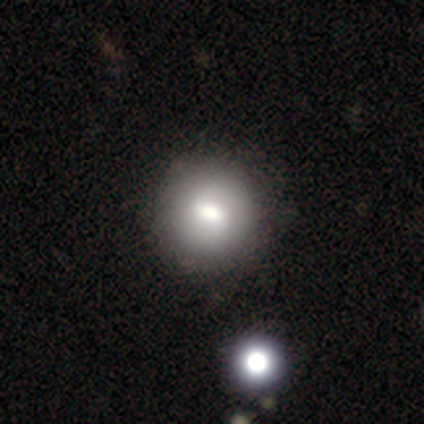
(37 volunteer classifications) Q: Smooth or featured?
A: smooth (62%); runner-up: featured or disk (35%)
Q: How rounded?
A: round (100%)
Q: Merging?
A: none (58%); runner-up: merger (8%)